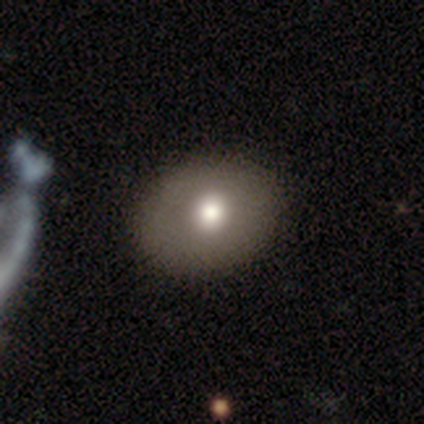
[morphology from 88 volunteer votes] This appears to be a smooth galaxy with no disk features (76%) that is round (58%). Merging: none (84%).